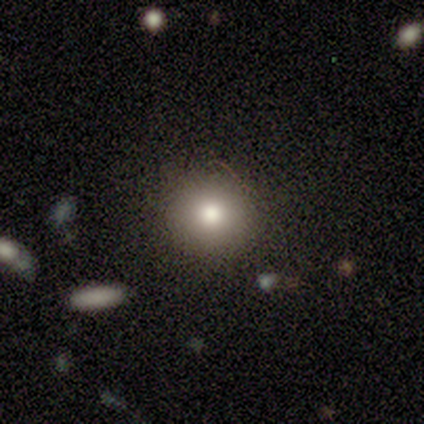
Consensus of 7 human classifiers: smooth-or-featured: smooth: 86% | star or artifact: 14% | featured or disk: 0%
  how-rounded: round: 67% | in between: 33% | cigar-shaped: 0%
  merging: none: 100% | minor disturbance: 0% | major disturbance: 0% | merger: 0%